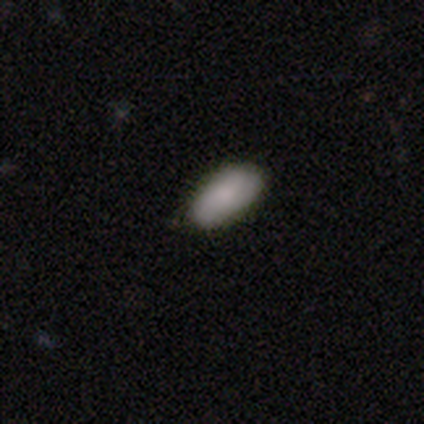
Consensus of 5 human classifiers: This is clearly a smooth galaxy (100%). How rounded: clearly in between (80%). Merging: clearly none (80%).